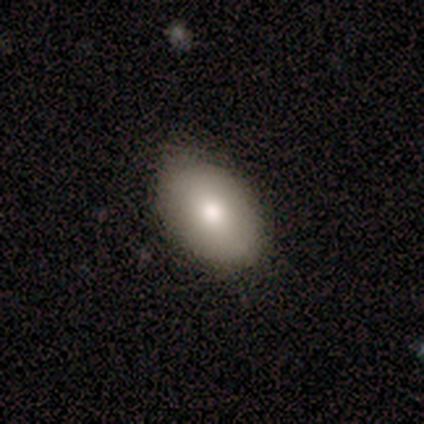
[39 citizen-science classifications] Overall: smooth (82%). How rounded: in between (94%). Merging: none (84%).